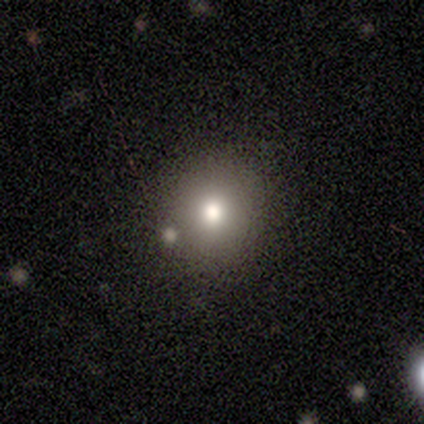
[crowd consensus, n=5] Morphology: type=smooth (80%); roundness=round (75%); merging=none (80%).